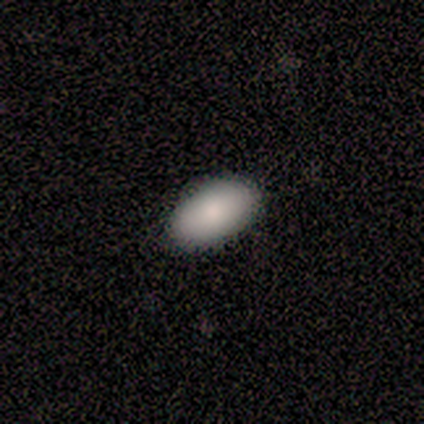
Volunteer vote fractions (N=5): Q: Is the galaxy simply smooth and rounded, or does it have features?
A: smooth — 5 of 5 (100%).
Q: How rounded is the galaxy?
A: in between — 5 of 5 (100%).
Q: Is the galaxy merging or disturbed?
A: none — 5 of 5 (100%).